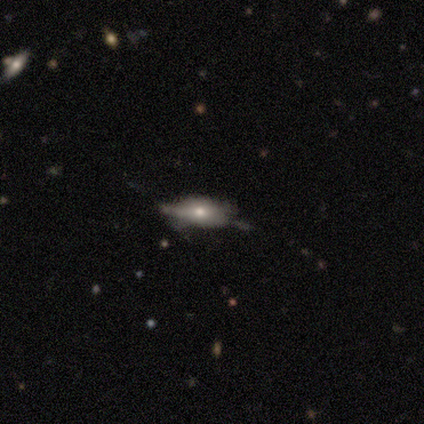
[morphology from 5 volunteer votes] Smooth or featured?
  - smooth: 40% * (tied)
  - star or artifact: 40% * (tied)
  - featured or disk: 20%
How rounded?
  - in between: 100% *
  - round: 0%
  - cigar-shaped: 0%
Merging?
  - minor disturbance: 100% *
  - none: 0%
  - major disturbance: 0%
  - merger: 0%